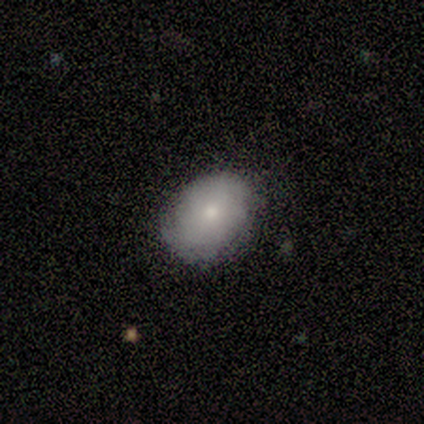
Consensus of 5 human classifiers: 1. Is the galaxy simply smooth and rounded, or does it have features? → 100% smooth, 0% featured or disk, 0% star or artifact.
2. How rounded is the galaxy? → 60% round, 40% in between, 0% cigar-shaped.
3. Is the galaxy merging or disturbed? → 60% none, 40% minor disturbance, 0% major disturbance, 0% merger.